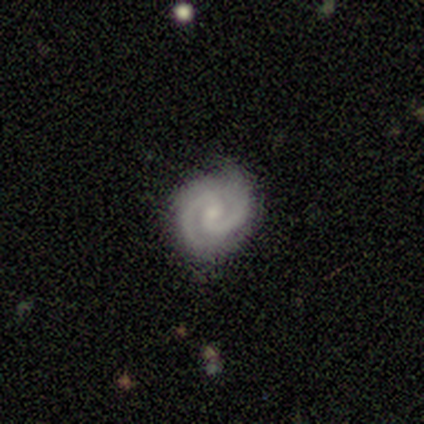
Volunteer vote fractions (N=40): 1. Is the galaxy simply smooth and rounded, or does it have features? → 92% featured or disk, 5% star or artifact, 2% smooth.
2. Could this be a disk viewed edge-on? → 100% no, 0% yes.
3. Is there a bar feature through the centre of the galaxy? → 46% weak (tied), 46% no (tied), 8% strong.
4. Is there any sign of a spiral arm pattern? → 100% yes, 0% no.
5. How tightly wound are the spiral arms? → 59% tight, 38% medium, 3% loose.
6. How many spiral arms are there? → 95% 2, 3% 1, 3% 3, 0% 4, 0% more than 4, 0% can't tell.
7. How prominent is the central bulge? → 76% small, 19% moderate, 5% none, 0% dominant, 0% large.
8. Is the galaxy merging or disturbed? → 89% none, 11% minor disturbance, 0% major disturbance, 0% merger.